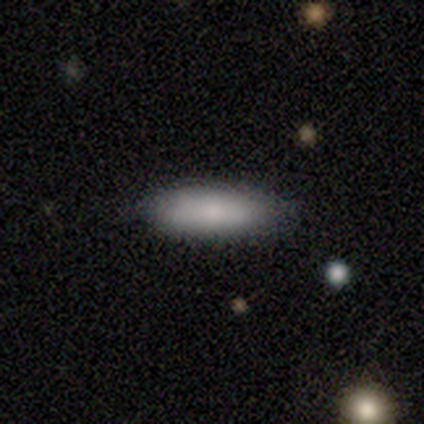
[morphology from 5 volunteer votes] A smooth galaxy with no disk features (80%) that is in between round and cigar-shaped (50%, tied with cigar-shaped). Merging: none (80%).